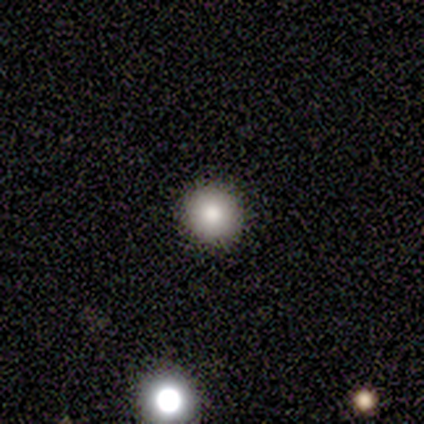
smooth_or_featured: smooth (p=0.75) [alt: star or artifact p=0.25]
how_rounded: round (p=0.67) [alt: in between p=0.33]
merging: none (p=0.67) [alt: merger p=0.33]